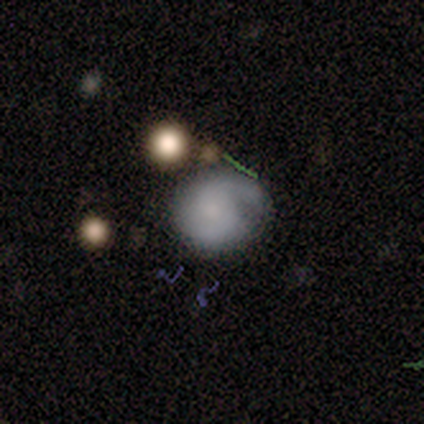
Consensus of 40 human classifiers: Overall: featured or disk (62%; smooth 25%). Edge-on disk: no (100%). Bar: no (88%). Spiral arms: yes (80%). Spiral arm count: 2 (75%). Spiral winding: medium (55%; tight 40%). Bulge size: none (40%; small 32%). Merging: none (49%; minor disturbance 34%).